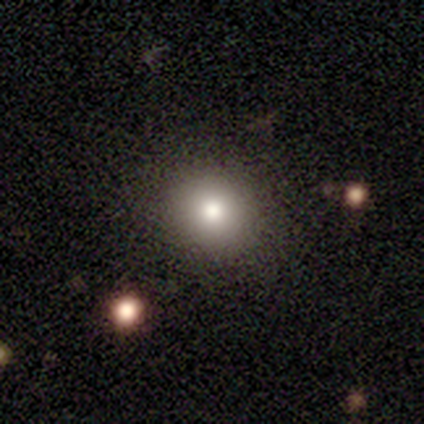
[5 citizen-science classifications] This appears to be a featured or disk galaxy (60%) with no bar (100%), no spiral arms (100%) and a moderate central bulge (67%). Merging: none (100%).